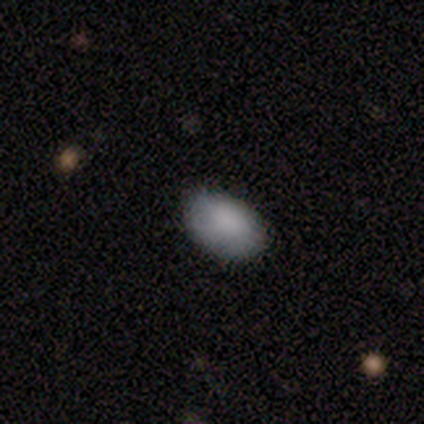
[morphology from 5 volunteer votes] Overall: smooth (80%). How rounded: in between (100%). Merging: none (75%).